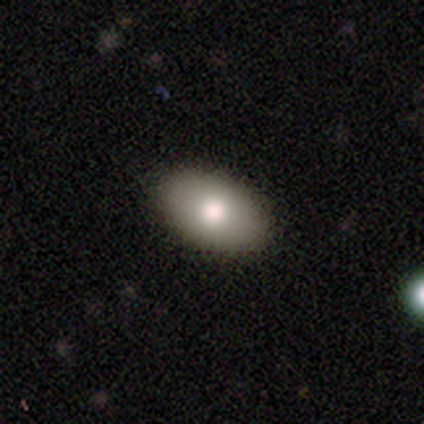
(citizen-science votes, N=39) Morphology: type=smooth (92%); roundness=in between (94%); merging=none (67%).